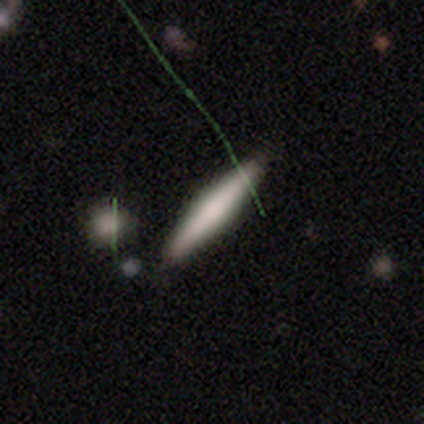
Overall: smooth (80%). How rounded: cigar-shaped (100%). Merging: none (100%).